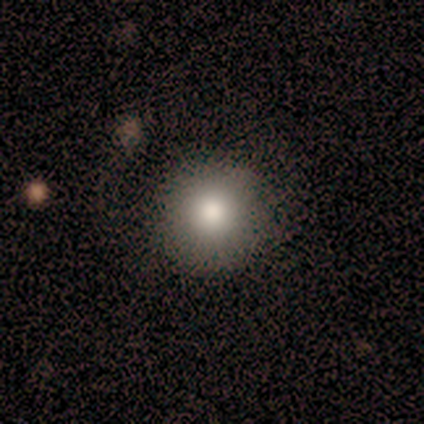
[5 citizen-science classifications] Smooth or featured: smooth — 80% (featured or disk — 20%)
How rounded: round — 100%
Merging: none — 80% (minor disturbance — 20%)